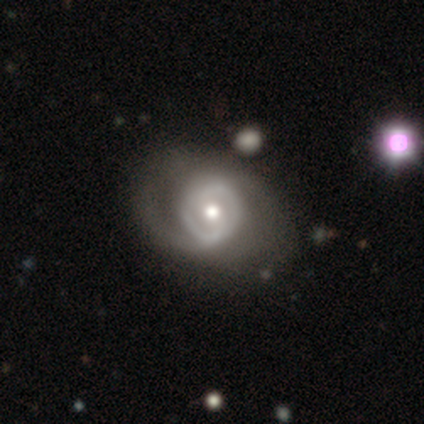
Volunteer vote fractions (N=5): Volunteers were most divided on "bar": no: 50%, strong: 25%, weak: 25%. More confident: edge-on disk — no (100%); smooth or featured — featured or disk (80%); merging — none (80%); spiral arms — yes (75%); bulge size — moderate (75%); spiral winding — medium (67%); spiral arm count — 2 (67%).